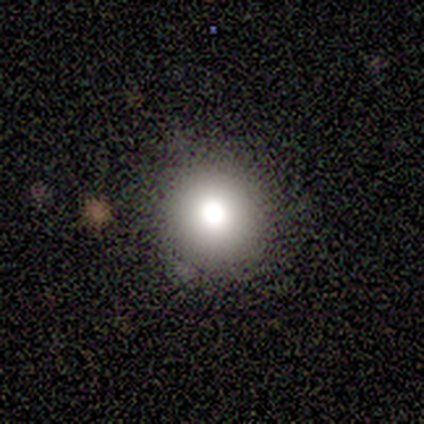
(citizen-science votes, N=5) Smooth or featured? 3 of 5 (60%) said smooth. How rounded? 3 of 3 (100%) said round. Merging? 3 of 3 (100%) said none.